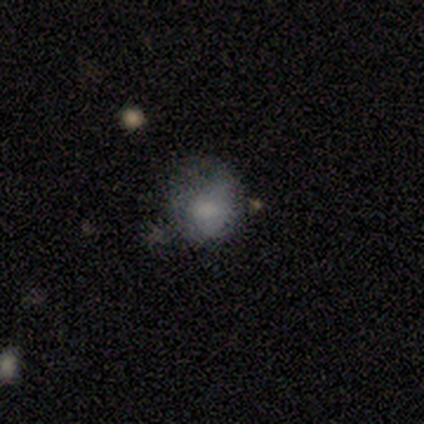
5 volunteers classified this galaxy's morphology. This is likely a smooth galaxy (60%). How rounded: clearly in between (100%). Merging: likely minor disturbance (60%).